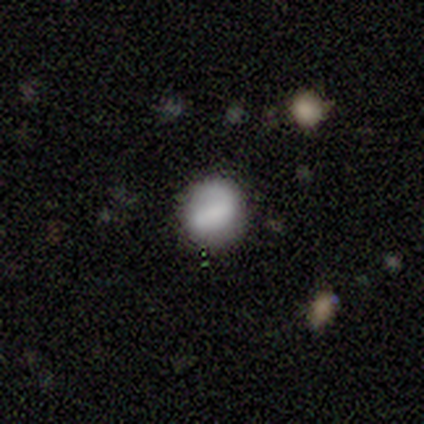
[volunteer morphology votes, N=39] This appears to be a smooth galaxy with no disk features (72%) that is round (86%). Merging: none (78%).